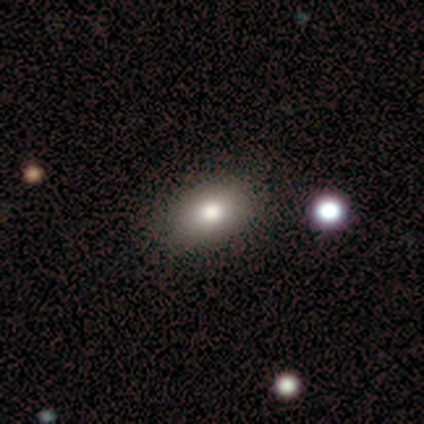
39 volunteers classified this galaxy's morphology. Smooth or featured? 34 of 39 (87%) said smooth. How rounded? 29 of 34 (85%) said in between. Merging? 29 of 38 (76%) said none.